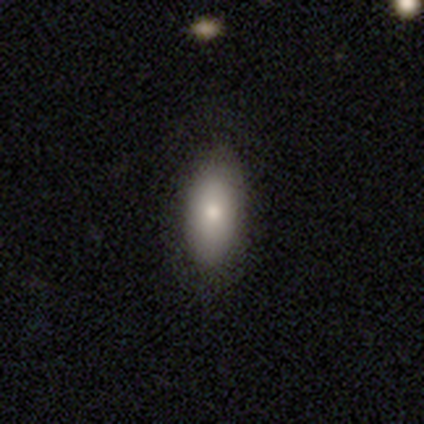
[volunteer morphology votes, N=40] A smooth galaxy with no disk features (85%) that is in between round and cigar-shaped (85%). Merging: none (89%).